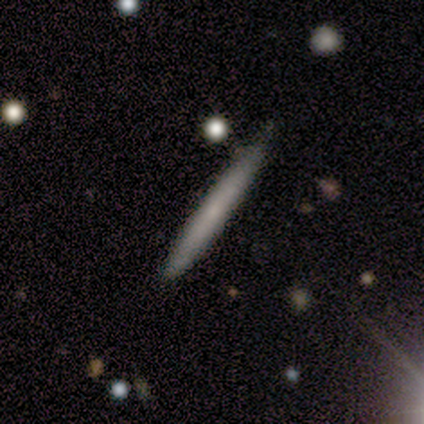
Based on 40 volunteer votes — smooth 72%, featured or disk 28%, star or artifact 0%. Down the decision tree: how rounded — cigar-shaped (93%); merging — none (78%).